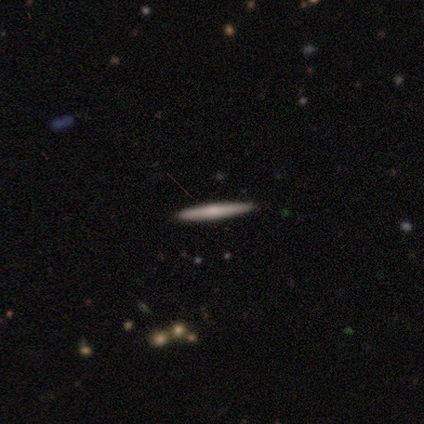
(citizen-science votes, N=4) Q: Smooth or featured?
A: smooth (50%); tied with: featured or disk (50%)
Q: How rounded?
A: cigar-shaped (100%)
Q: Merging?
A: none (100%)